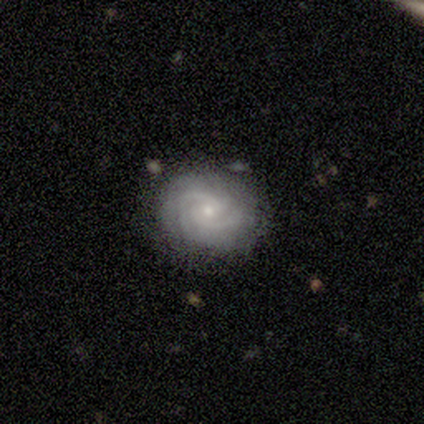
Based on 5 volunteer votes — A featured or disk galaxy (100%) with a weak bar (100%), 2 (40%, tied with 3) tight (60%) spiral arms (100%) and a small central bulge (60%). Merging: none (100%).